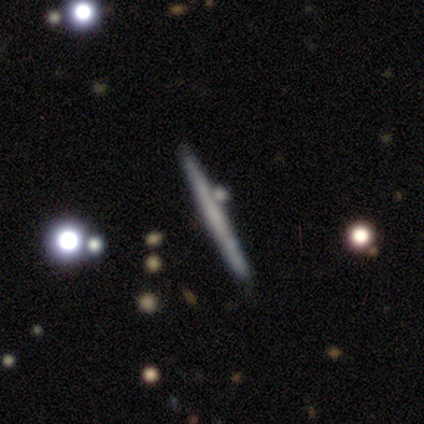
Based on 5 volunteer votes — Smooth or featured? 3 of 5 (60%) said smooth. How rounded? 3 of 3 (100%) said cigar-shaped. Merging? 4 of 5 (80%) said none.